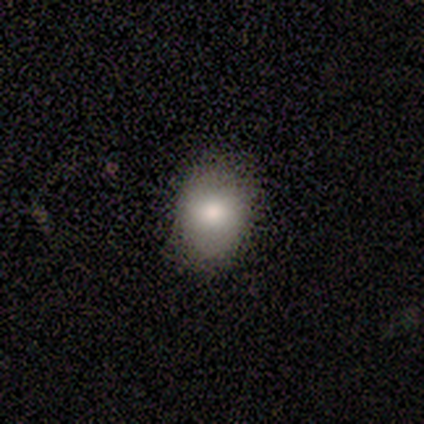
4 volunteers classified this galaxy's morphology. Volunteers were most divided on "smooth or featured" (2-way tie): smooth: 50%, featured or disk: 50%, star or artifact: 0%. More confident: how rounded — round (100%); merging — none (100%).